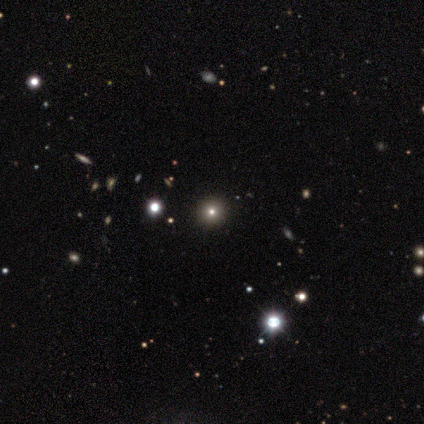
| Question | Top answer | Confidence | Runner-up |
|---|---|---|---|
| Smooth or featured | smooth | 80% | star or artifact (20%) |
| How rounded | round | 100% | — |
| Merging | none | 100% | — |